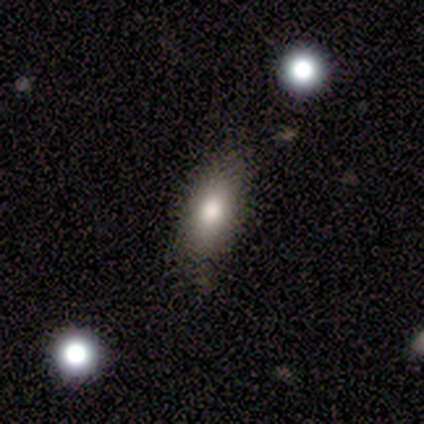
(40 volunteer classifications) Smooth or featured?
  - smooth: 85% *
  - featured or disk: 8%
  - star or artifact: 8%
How rounded?
  - in between: 79% *
  - cigar-shaped: 18%
  - round: 3%
Merging?
  - none: 78% *
  - minor disturbance: 16%
  - major disturbance: 3%
  - merger: 3%